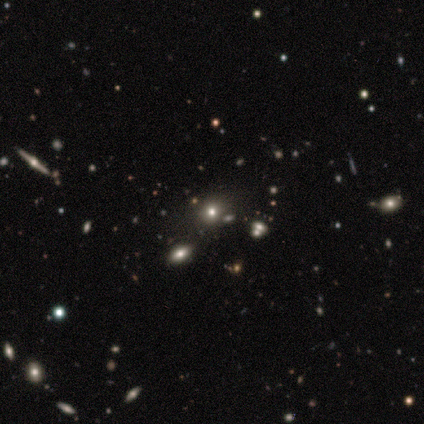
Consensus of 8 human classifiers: smooth 50%, star or artifact 38%, featured or disk 12%. Down the decision tree: how rounded — round (50%, tied with in between); merging — none (100%).